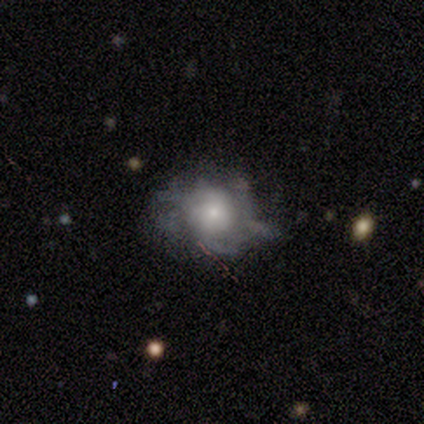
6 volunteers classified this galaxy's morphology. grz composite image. It shows a featured or disk galaxy (83%) with no bar (100%), tight (50%, tied with medium) spiral arms (80%) and a moderate central bulge (40%, tied with small). Merging: minor disturbance (50%).